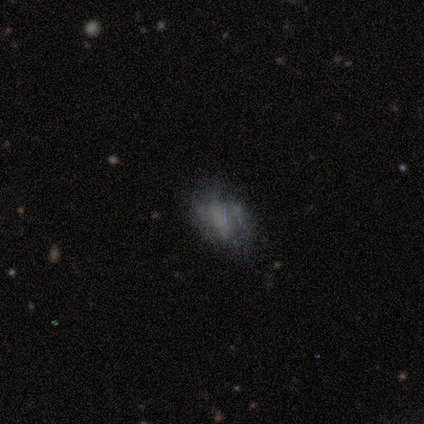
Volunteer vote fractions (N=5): Morphology: type=smooth (40%, tied with featured or disk); roundness=in between (100%); merging=minor disturbance (50%).